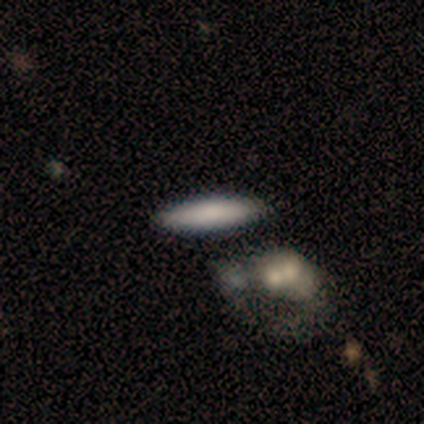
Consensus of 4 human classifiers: Smooth or featured? 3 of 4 (75%) said smooth. How rounded? 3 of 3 (100%) said cigar-shaped. Merging? 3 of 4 (75%) said none.